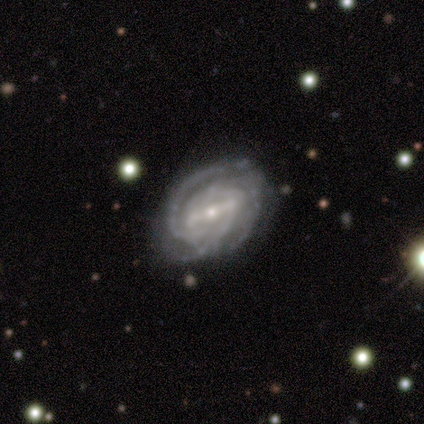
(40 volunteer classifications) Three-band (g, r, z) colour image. It shows a featured or disk galaxy (95%) with a strong bar (81%), 3 (62%) tight (73%) spiral arms (100%) and a small central bulge (62%). Merging: none (51%).